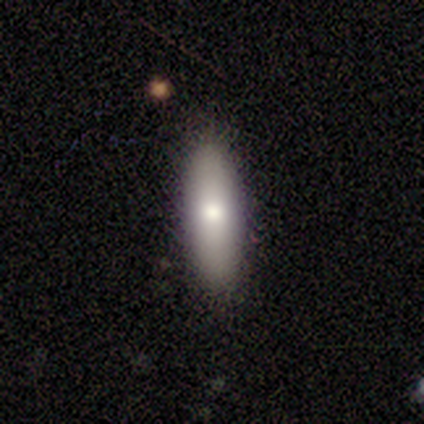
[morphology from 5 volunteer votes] type=smooth (100%); roundness=in between (60%); merging=none (80%).